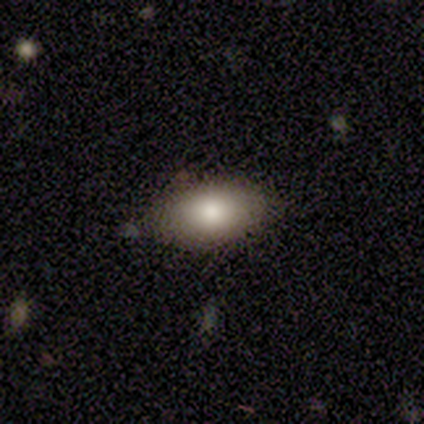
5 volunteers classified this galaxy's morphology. Smooth or featured?
  - smooth: 80% *
  - featured or disk: 20%
  - star or artifact: 0%
How rounded?
  - in between: 100% *
  - round: 0%
  - cigar-shaped: 0%
Merging?
  - none: 80% *
  - minor disturbance: 20%
  - major disturbance: 0%
  - merger: 0%